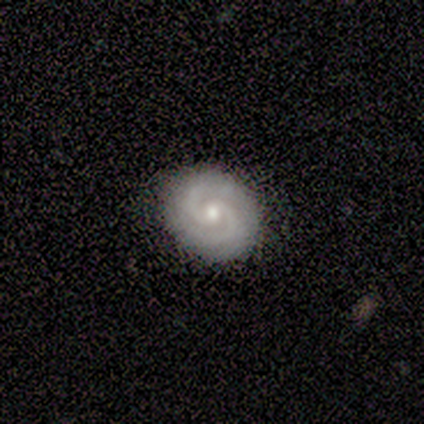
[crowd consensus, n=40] Smooth or featured?
  - featured or disk: 90% *
  - smooth: 8%
  - star or artifact: 2%
Edge-on disk?
  - no: 100% *
  - yes: 0%
Bar?
  - no: 78% *
  - weak: 19%
  - strong: 3%
Spiral arms?
  - yes: 97% *
  - no: 3%
Spiral winding?
  - tight: 66% *
  - medium: 34%
  - loose: 0%
Spiral arm count?
  - 2: 80% *
  - 3: 11%
  - 4: 3%
  - more than 4: 3%
  - can't tell: 3%
  - 1: 0%
Bulge size?
  - moderate: 58% *
  - small: 36%
  - large: 6%
  - dominant: 0%
  - none: 0%
Merging?
  - none: 90% *
  - minor disturbance: 8%
  - major disturbance: 3%
  - merger: 0%